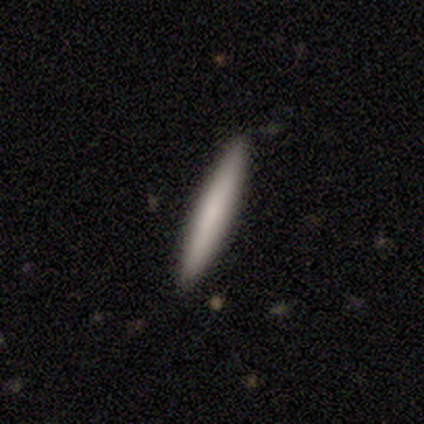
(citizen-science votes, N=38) A smooth galaxy with no disk features (82%) that is cigar-shaped (94%).

Vote fractions:
- Smooth or featured? smooth: 82% / featured or disk: 11% / star or artifact: 8%
- How rounded? cigar-shaped: 94% / round: 3% / in between: 3%
- Merging? none: 94% / minor disturbance: 3% / merger: 3% / major disturbance: 0%